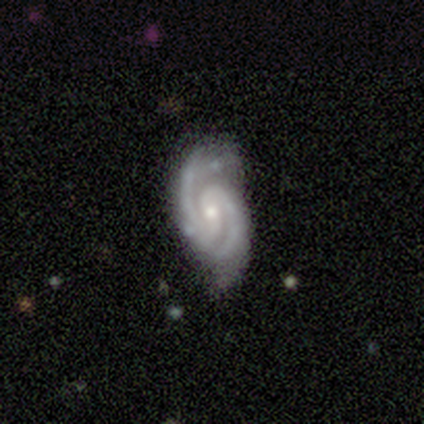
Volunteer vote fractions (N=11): Smooth or featured? 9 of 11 (82%) said featured or disk. Edge-on disk? 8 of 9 (89%) said no. Bar? 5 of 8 (62%) said no. Spiral arms? 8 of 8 (100%) said yes. Spiral winding? 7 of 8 (88%) said tight. Spiral arm count? 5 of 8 (62%) said 2. Bulge size? 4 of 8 (50%) said small. Merging? 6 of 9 (67%) said none.